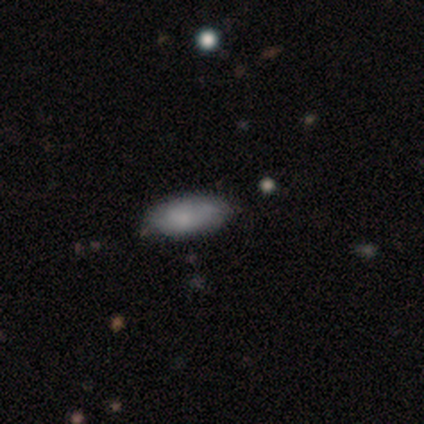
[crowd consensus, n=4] Smooth or featured: smooth — 75% (featured or disk — 25%)
How rounded: in between — 100%
Merging: none — 75% (minor disturbance — 25%)